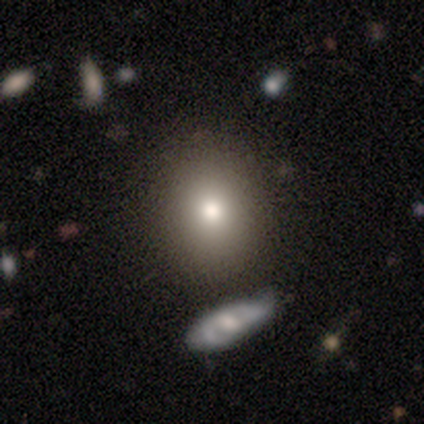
This is clearly a smooth galaxy (92%). How rounded: likely round (70%). Merging: likely none (68%).